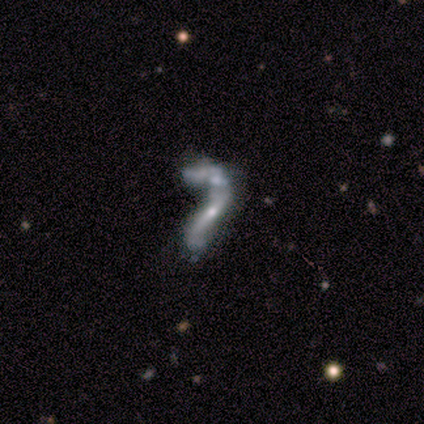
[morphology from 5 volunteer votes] Smooth or featured? 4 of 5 (80%) said featured or disk. Edge-on disk? 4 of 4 (100%) said no. Bar? 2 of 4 (50%, tied with no) said weak. Spiral arms? 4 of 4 (100%) said yes. Spiral winding? 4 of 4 (100%) said loose. Spiral arm count? 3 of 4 (75%) said 2. Bulge size? 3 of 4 (75%) said small. Merging? 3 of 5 (60%) said major disturbance.